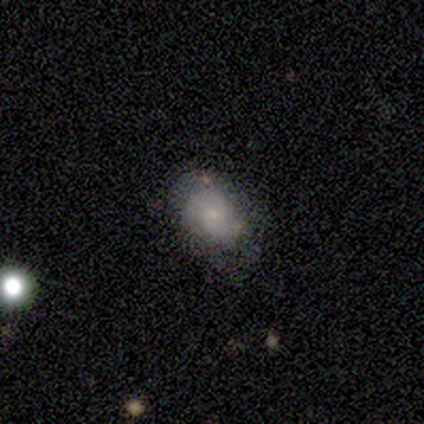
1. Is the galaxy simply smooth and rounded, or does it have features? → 80% smooth, 20% featured or disk, 0% star or artifact.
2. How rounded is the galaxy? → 75% in between, 25% round, 0% cigar-shaped.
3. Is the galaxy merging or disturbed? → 60% none, 20% major disturbance, 20% merger, 0% minor disturbance.